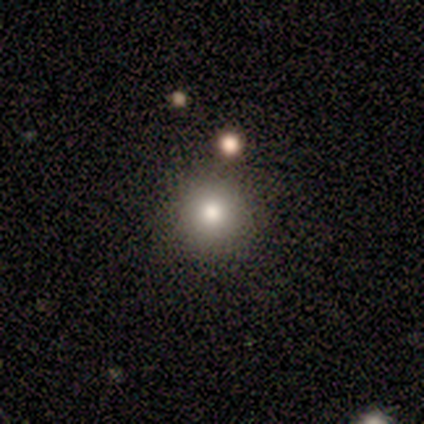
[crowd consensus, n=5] smooth 80%, featured or disk 20%, star or artifact 0%. Down the decision tree: how rounded — round (100%); merging — none (80%).